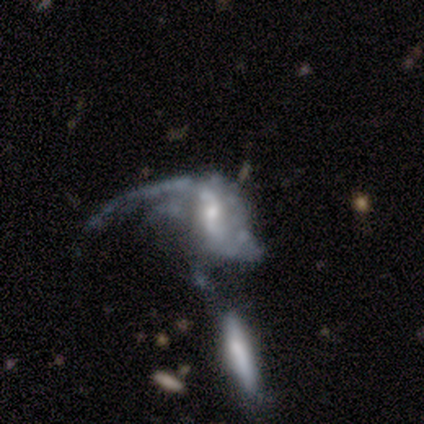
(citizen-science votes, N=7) smooth_or_featured: featured or disk (p=0.71) [alt: smooth p=0.29]
disk_edge_on: no (p=0.80) [alt: yes p=0.20]
bar: strong (p=0.50) [tied with: no p=0.50]
has_spiral_arms: yes (p=0.75) [alt: no p=0.25]
spiral_winding: loose (p=1.00)
spiral_arm_count: 1 (p=0.33) [tied with: 2 p=0.33, can't tell p=0.33]
bulge_size: small (p=1.00)
merging: merger (p=0.57) [alt: major disturbance p=0.43]